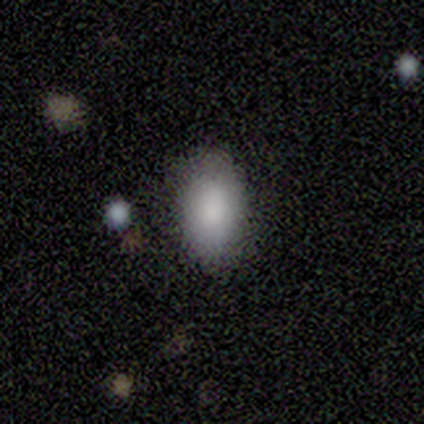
smooth-or-featured: smooth: 88% | star or artifact: 12% | featured or disk: 0%
  how-rounded: in between: 93% | cigar-shaped: 7% | round: 0%
  merging: none: 73% | minor disturbance: 27% | major disturbance: 0% | merger: 0%